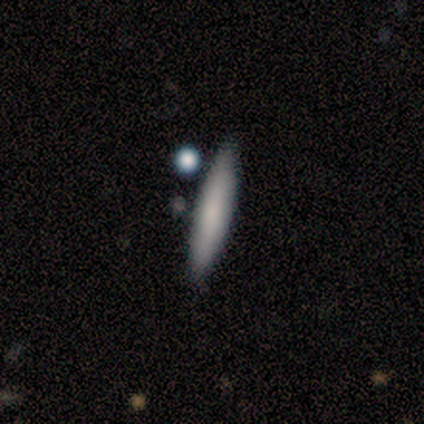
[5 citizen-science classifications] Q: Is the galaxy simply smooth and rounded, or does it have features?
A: smooth — 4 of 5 (80%).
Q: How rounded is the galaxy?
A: cigar-shaped — 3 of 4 (75%).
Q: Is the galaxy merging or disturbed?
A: none — 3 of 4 (75%).